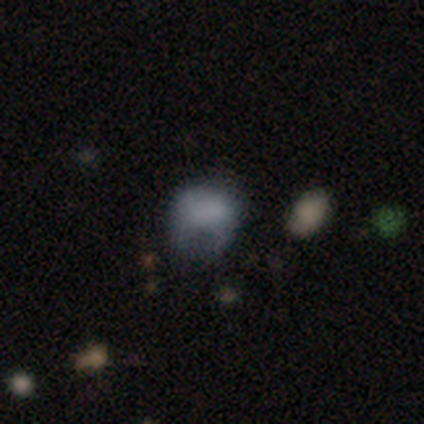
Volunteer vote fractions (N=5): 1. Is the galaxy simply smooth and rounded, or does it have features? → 80% smooth, 20% star or artifact, 0% featured or disk.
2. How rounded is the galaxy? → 50% round (tied), 50% in between (tied), 0% cigar-shaped.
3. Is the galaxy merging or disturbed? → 50% minor disturbance (tied), 50% major disturbance (tied), 0% none, 0% merger.